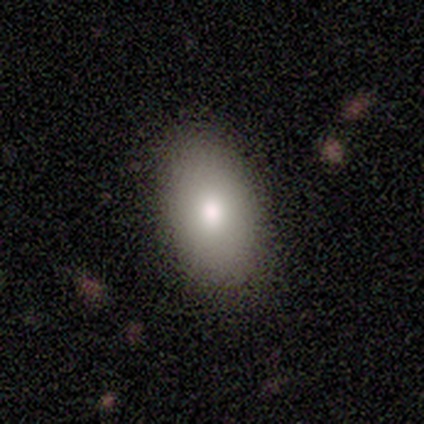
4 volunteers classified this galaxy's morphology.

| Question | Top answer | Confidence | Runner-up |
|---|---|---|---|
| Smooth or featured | smooth | 50% | tied: featured or disk (50%) |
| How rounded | in between | 100% | — |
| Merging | none | 100% | — |